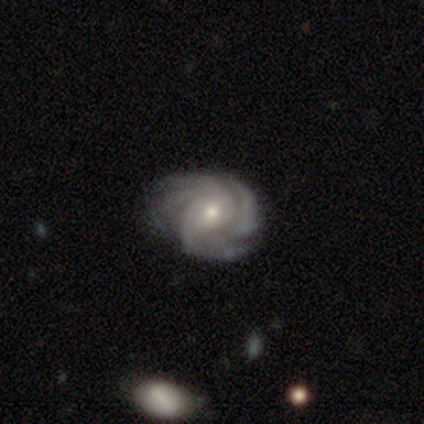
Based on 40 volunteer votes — Morphology: type=featured or disk (90%); edge-on=no (97%); bar=weak (60%); spiral arms=yes (100%); winding=tight (57%); arm count=4 (29%); bulge=moderate (66%); merging=none (58%).